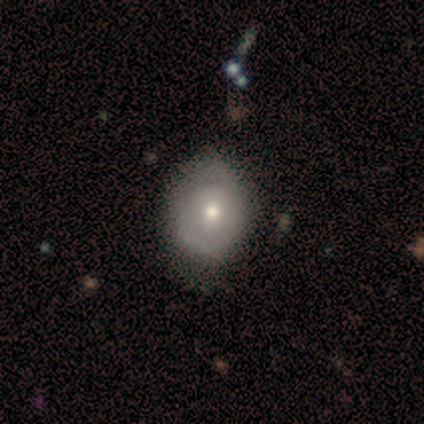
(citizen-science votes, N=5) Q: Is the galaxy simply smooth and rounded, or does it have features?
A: featured or disk — 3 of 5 (60%).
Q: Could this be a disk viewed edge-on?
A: no — 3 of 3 (100%).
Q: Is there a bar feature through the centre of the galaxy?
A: no — 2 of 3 (67%).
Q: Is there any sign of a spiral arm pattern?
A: no — 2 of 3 (67%).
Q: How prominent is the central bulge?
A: moderate — 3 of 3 (100%).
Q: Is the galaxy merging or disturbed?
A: none — 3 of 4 (75%).